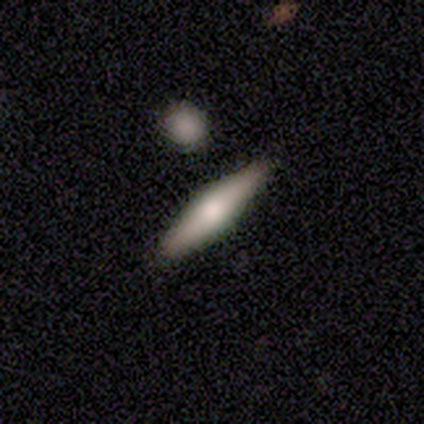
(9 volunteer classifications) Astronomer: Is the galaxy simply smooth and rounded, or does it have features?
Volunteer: featured or disk — 56% (runner-up: smooth, 44%).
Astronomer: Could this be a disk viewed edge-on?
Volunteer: yes — 100%.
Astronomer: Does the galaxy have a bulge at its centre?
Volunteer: rounded — 100%.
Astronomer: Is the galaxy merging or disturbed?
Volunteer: none — 67%.